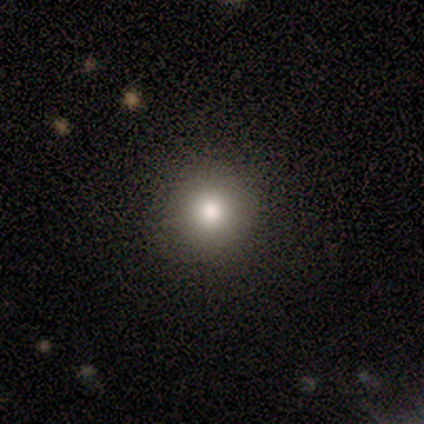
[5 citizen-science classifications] Smooth or featured? smooth (60%)
How rounded? round (100%)
Merging? none (100%)